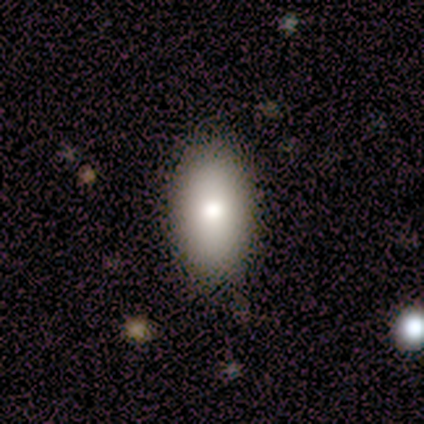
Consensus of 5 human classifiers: Smooth or featured: smooth — 80% (featured or disk — 20%)
How rounded: in between — 100%
Merging: none — 100%